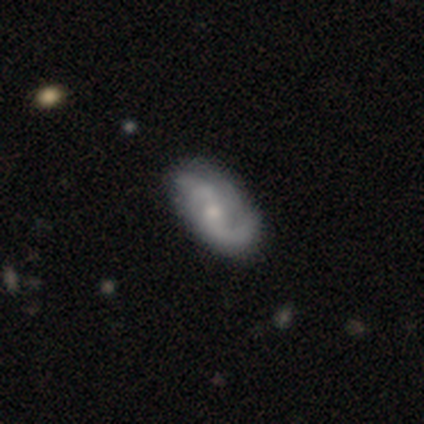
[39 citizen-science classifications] A featured or disk galaxy (82%) with a weak bar (44%, tied with no), 2 (71%) medium (35%, tied with loose) spiral arms (97%) and a moderate central bulge (53%). Merging: none (42%).